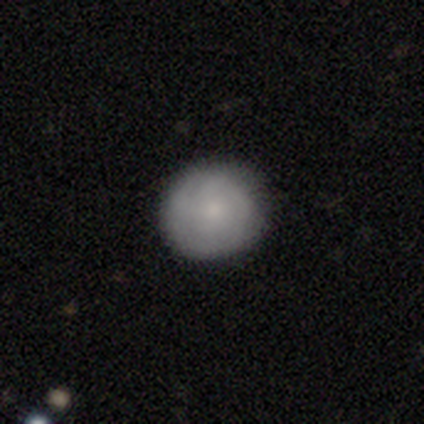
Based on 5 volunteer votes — Smooth or featured?
  - smooth: 60% *
  - featured or disk: 40%
  - star or artifact: 0%
How rounded?
  - round: 67% *
  - in between: 33%
  - cigar-shaped: 0%
Merging?
  - none: 100% *
  - minor disturbance: 0%
  - major disturbance: 0%
  - merger: 0%